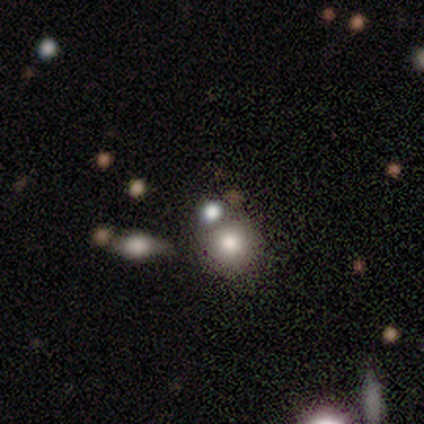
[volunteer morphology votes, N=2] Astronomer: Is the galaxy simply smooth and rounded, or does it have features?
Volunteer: smooth — 100%.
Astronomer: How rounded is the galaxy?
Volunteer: round — 100%.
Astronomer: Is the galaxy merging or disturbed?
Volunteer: none — 50%, tied with merger at 50%.